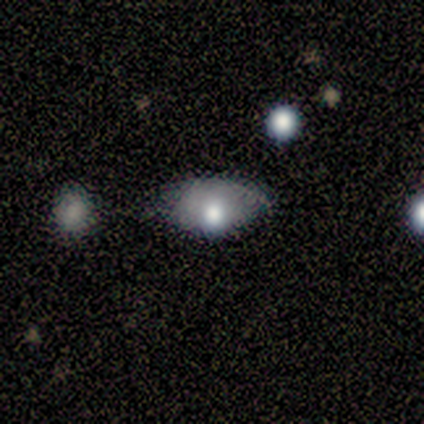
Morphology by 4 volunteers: Volunteers were most divided on "smooth or featured": smooth: 75%, featured or disk: 25%, star or artifact: 0%. More confident: how rounded — in between (100%); merging — none (100%).